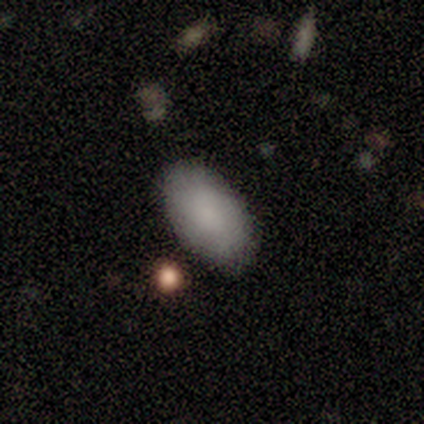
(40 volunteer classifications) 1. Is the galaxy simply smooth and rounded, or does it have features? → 88% smooth, 8% featured or disk, 5% star or artifact.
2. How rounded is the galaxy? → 100% in between, 0% round, 0% cigar-shaped.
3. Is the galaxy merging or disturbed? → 71% none, 5% major disturbance, 5% merger, 3% minor disturbance.